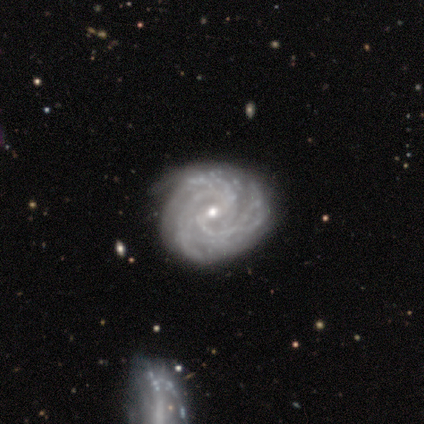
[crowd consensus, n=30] Q: Smooth or featured?
A: featured or disk (90%); runner-up: smooth (10%)
Q: Edge-on disk?
A: no (100%)
Q: Bar?
A: weak (48%); runner-up: no (44%)
Q: Spiral arms?
A: yes (100%)
Q: Spiral winding?
A: tight (81%); runner-up: medium (19%)
Q: Spiral arm count?
A: 3 (26%); runner-up: 4 (22%)
Q: Bulge size?
A: small (70%); runner-up: moderate (30%)
Q: Merging?
A: none (67%); runner-up: minor disturbance (20%)